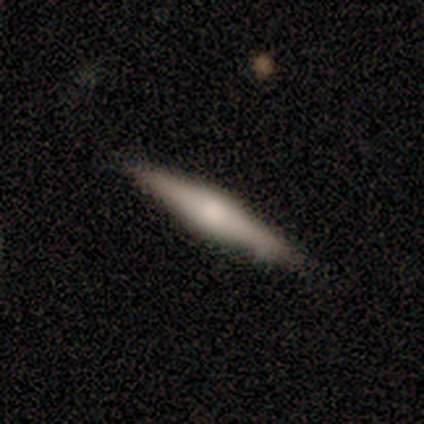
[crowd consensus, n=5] This is likely a featured or disk galaxy (60%). It is clearly viewed edge-on (100%). Edge-on bulge: clearly rounded (100%). Merging: clearly none (80%).